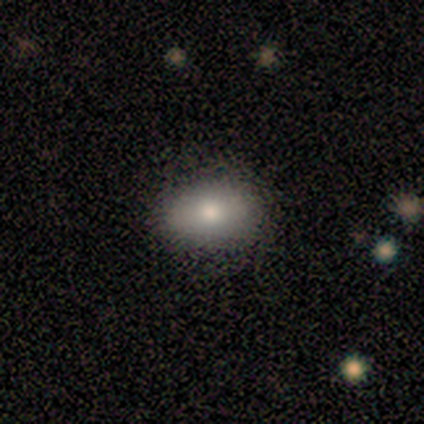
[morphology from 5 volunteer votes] smooth-or-featured: smooth: 100% | featured or disk: 0% | star or artifact: 0%
  how-rounded: in between: 80% | round: 20% | cigar-shaped: 0%
  merging: none: 100% | minor disturbance: 0% | major disturbance: 0% | merger: 0%